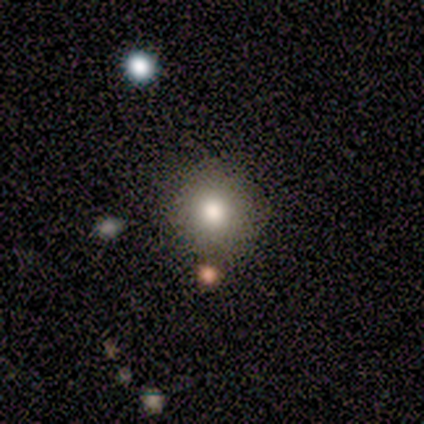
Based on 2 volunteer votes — Q: Smooth or featured?
A: smooth (100%)
Q: How rounded?
A: round (100%)
Q: Merging?
A: none (100%)